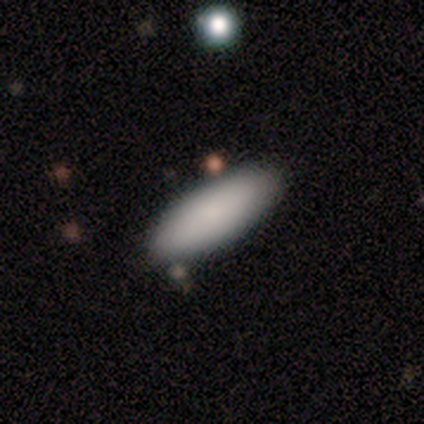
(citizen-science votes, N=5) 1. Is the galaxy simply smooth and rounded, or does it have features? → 100% smooth, 0% featured or disk, 0% star or artifact.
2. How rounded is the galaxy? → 60% in between, 40% cigar-shaped, 0% round.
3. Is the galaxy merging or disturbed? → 80% none, 20% minor disturbance, 0% major disturbance, 0% merger.